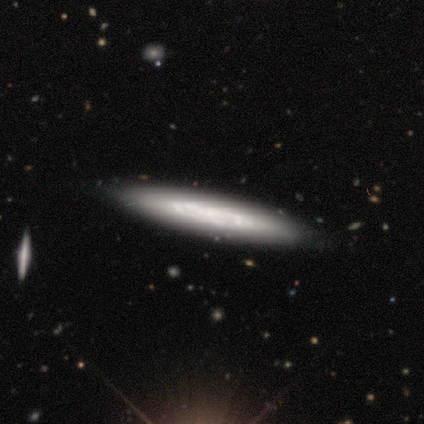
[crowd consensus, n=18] smooth-or-featured: featured or disk: 67% | smooth: 33% | star or artifact: 0%
  disk-edge-on: yes: 75% | no: 25%
    edge-on-bulge: none: 100% | boxy: 0% | rounded: 0%
  merging: none: 83% | minor disturbance: 11% | major disturbance: 6% | merger: 0%